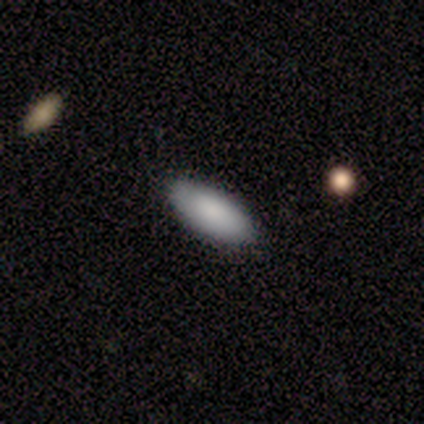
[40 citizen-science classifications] Morphology: type=smooth (90%); roundness=in between (89%); merging=none (82%).